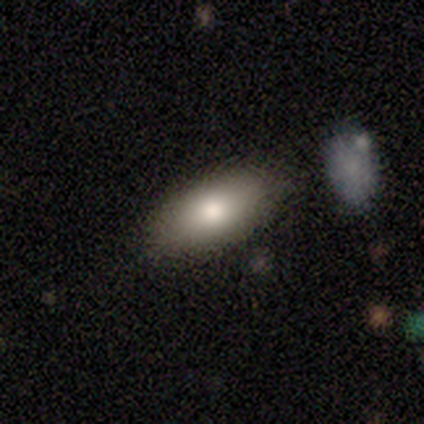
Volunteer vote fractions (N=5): This is clearly a smooth galaxy (100%). How rounded: clearly in between (100%). Merging: clearly none (100%).